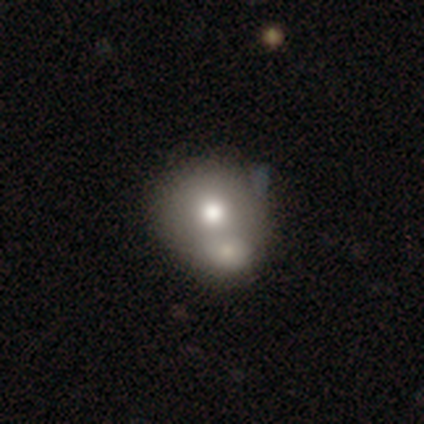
smooth-or-featured: smooth: 79% | featured or disk: 13% | star or artifact: 8%
  how-rounded: round: 77% | in between: 20% | cigar-shaped: 3%
  merging: merger: 66% | none: 17% | minor disturbance: 6% | major disturbance: 3%